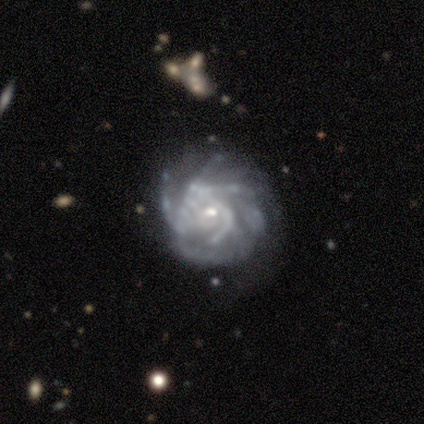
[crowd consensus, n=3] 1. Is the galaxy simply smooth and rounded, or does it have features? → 100% featured or disk, 0% smooth, 0% star or artifact.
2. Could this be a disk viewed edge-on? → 100% no, 0% yes.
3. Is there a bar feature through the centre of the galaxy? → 100% no, 0% strong, 0% weak.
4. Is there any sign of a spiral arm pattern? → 100% yes, 0% no.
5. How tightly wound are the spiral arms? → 67% medium, 33% loose, 0% tight.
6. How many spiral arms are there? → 67% 4, 33% more than 4, 0% 1, 0% 2, 0% 3, 0% can't tell.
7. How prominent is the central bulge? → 67% small, 33% moderate, 0% dominant, 0% large, 0% none.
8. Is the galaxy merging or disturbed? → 33% none (tied), 33% minor disturbance (tied), 33% major disturbance (tied), 0% merger.